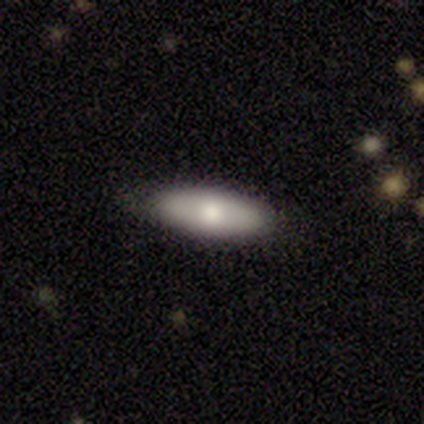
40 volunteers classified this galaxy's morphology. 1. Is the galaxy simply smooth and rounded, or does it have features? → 75% smooth, 22% featured or disk, 2% star or artifact.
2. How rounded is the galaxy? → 67% in between, 33% cigar-shaped, 0% round.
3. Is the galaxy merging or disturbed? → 82% none, 18% minor disturbance, 0% major disturbance, 0% merger.